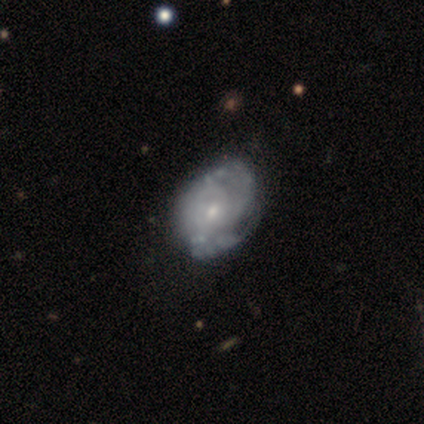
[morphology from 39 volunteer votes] Q: Smooth or featured?
A: featured or disk (77%); runner-up: smooth (18%)
Q: Edge-on disk?
A: no (97%); runner-up: yes (3%)
Q: Bar?
A: no (79%); runner-up: weak (21%)
Q: Spiral arms?
A: yes (83%); runner-up: no (17%)
Q: Spiral winding?
A: tight (67%); runner-up: medium (33%)
Q: Spiral arm count?
A: can't tell (54%); runner-up: 3 (25%)
Q: Bulge size?
A: small (66%); runner-up: moderate (24%)
Q: Merging?
A: none (46%); runner-up: minor disturbance (22%)